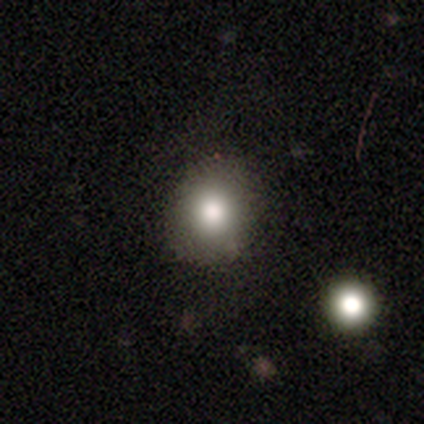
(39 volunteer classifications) smooth-or-featured: smooth: 77% | featured or disk: 18% | star or artifact: 5%
  how-rounded: round: 73% | in between: 27% | cigar-shaped: 0%
  merging: none: 51% | minor disturbance: 5% | merger: 3% | major disturbance: 0%